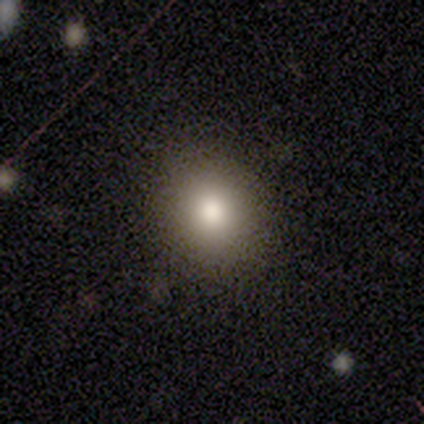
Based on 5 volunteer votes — Morphology: type=smooth (80%); roundness=round (100%); merging=none (100%).